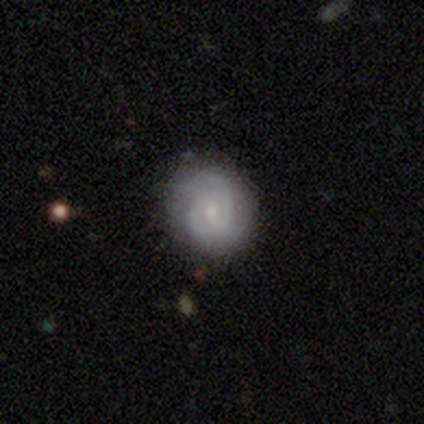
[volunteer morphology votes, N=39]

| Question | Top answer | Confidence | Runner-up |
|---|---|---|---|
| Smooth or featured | featured or disk | 59% | smooth (38%) |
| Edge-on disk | no | 100% | — |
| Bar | no | 70% | weak (26%) |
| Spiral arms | yes | 91% | no (9%) |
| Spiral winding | tight | 67% | medium (24%) |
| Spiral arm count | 2 | 57% | can't tell (29%) |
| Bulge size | small | 74% | moderate (13%) |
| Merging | none | 66% | minor disturbance (26%) |